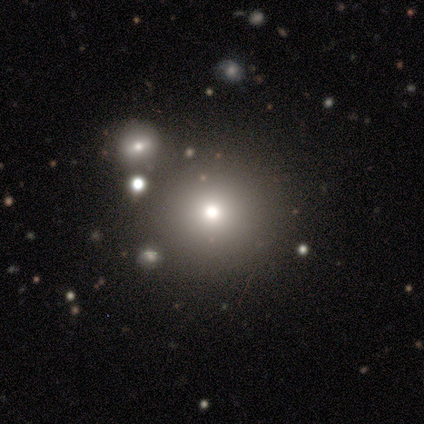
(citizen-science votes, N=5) Smooth or featured? 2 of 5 (40%, tied with star or artifact) said featured or disk. Edge-on disk? 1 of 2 (50%, tied with no) said yes. Edge-on bulge? 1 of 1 (100%) said rounded. Merging? 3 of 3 (100%) said none.